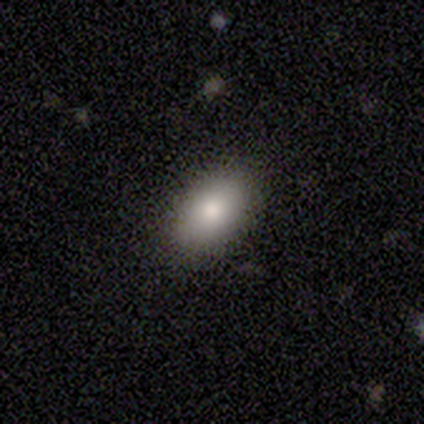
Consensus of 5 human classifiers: Smooth or featured? smooth (100%)
How rounded? in between (100%)
Merging? none (100%)